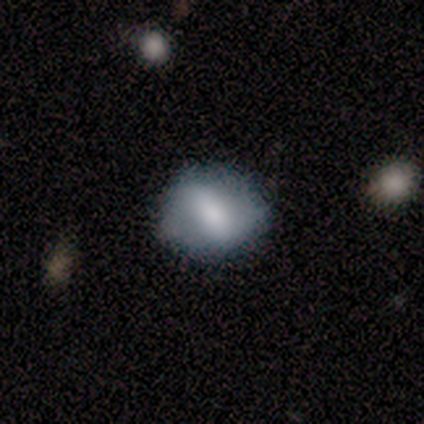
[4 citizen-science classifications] Smooth or featured?
  - featured or disk: 50% *
  - smooth: 25%
  - star or artifact: 25%
Edge-on disk?
  - yes: 50% * (tied)
  - no: 50% * (tied)
Edge-on bulge?
  - none: 100% *
  - boxy: 0%
  - rounded: 0%
Merging?
  - none: 67% *
  - minor disturbance: 33%
  - major disturbance: 0%
  - merger: 0%